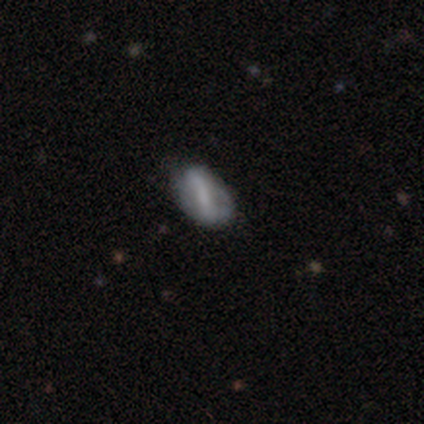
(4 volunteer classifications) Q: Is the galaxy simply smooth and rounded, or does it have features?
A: featured or disk — 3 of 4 (75%).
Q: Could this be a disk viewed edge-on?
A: no — 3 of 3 (100%).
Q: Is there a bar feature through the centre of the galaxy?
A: weak — 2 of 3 (67%).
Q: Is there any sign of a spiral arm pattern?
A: no — 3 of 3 (100%).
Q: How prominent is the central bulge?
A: moderate — 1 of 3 (33%, tied with small and none).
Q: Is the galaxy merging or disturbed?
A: none — 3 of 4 (75%).